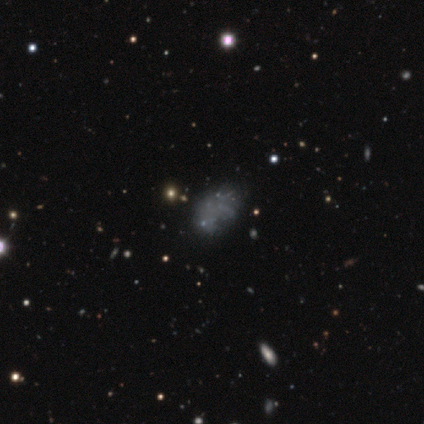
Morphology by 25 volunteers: A smooth galaxy with no disk features (40%) that is in between round and cigar-shaped (90%).

Vote fractions:
- Smooth or featured? smooth: 40% / star or artifact: 32% / featured or disk: 28%
- How rounded? in between: 90% / round: 10% / cigar-shaped: 0%
- Merging? none: 47% / minor disturbance: 29% / major disturbance: 24% / merger: 0%